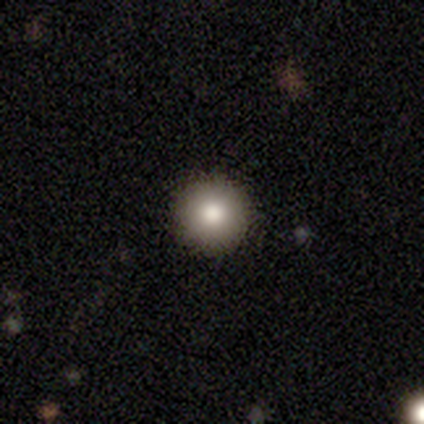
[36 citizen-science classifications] This is likely a smooth galaxy (78%). How rounded: clearly round (100%). Merging: clearly none (97%).